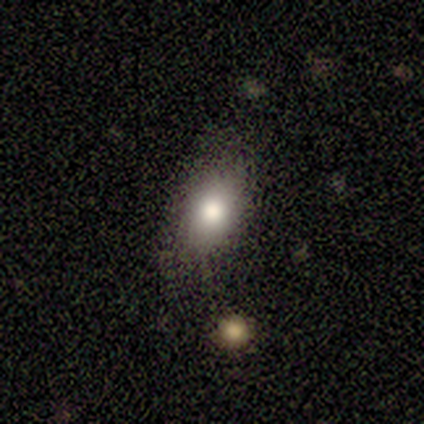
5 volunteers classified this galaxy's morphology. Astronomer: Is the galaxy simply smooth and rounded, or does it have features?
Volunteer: smooth — 80%.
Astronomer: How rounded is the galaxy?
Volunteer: in between — 100%.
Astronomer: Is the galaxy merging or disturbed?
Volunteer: none — 80%.